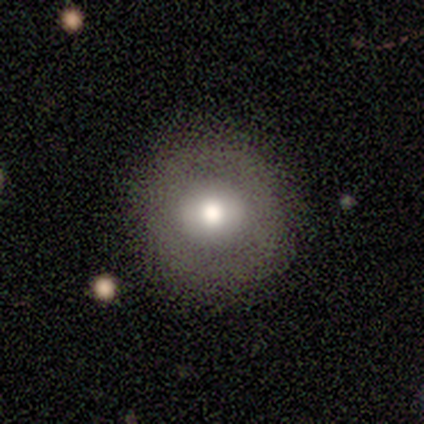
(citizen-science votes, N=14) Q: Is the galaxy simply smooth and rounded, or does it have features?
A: smooth — 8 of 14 (57%).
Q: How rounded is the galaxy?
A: round — 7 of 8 (88%).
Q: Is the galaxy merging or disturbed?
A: none — 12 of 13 (92%).